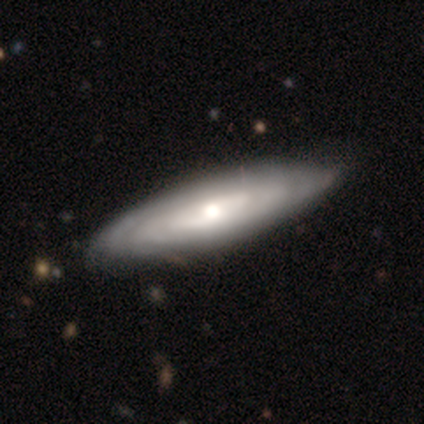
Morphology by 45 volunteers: A featured or disk galaxy (87%) with no bar (80%), tight (71%) spiral arms (80%) and a moderate central bulge (53%).

Vote fractions:
- Smooth or featured? featured or disk: 87% / smooth: 13% / star or artifact: 0%
- Edge-on disk? no: 77% / yes: 23%
- Bar? no: 80% / strong: 13% / weak: 7%
- Spiral arms? yes: 80% / no: 20%
- Spiral winding? tight: 71% / medium: 29% / loose: 0%
- Spiral arm count? can't tell: 79% / 2: 8% / 3: 8% / 4: 4% / 1: 0% / more than 4: 0%
- Bulge size? moderate: 53% / large: 27% / small: 20% / dominant: 0% / none: 0%
- Merging? none: 78% / minor disturbance: 20% / major disturbance: 2% / merger: 0%